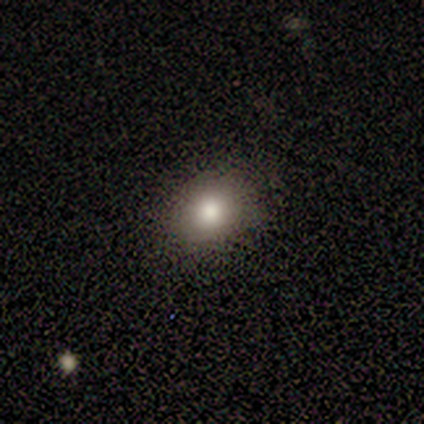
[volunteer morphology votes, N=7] Overall: smooth (57%; star or artifact 29%). How rounded: round (75%). Merging: none (100%).